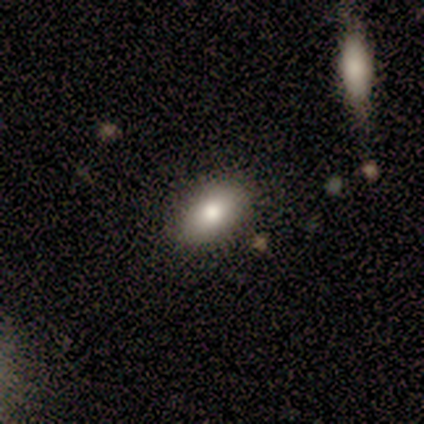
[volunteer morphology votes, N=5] smooth-or-featured: smooth: 100% | featured or disk: 0% | star or artifact: 0%
  how-rounded: in between: 100% | round: 0% | cigar-shaped: 0%
  merging: none: 80% | minor disturbance: 20% | major disturbance: 0% | merger: 0%